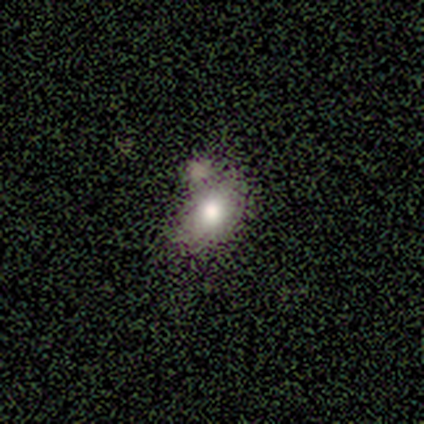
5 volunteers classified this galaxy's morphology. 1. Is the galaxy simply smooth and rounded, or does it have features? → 100% smooth, 0% featured or disk, 0% star or artifact.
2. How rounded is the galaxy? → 80% in between, 20% round, 0% cigar-shaped.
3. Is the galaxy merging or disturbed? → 40% merger, 20% none, 20% minor disturbance, 20% major disturbance.